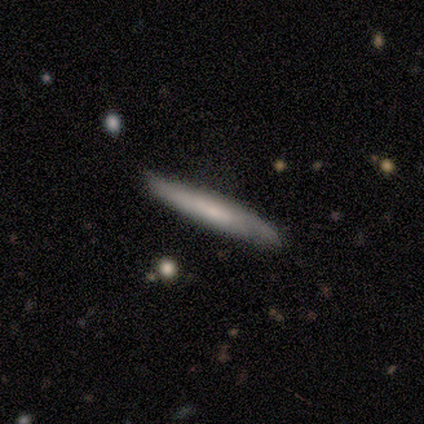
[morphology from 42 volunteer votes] smooth_or_featured: smooth (p=0.52) [alt: featured or disk p=0.40]
how_rounded: cigar-shaped (p=1.00)
merging: none (p=0.64) [alt: minor disturbance p=0.31]